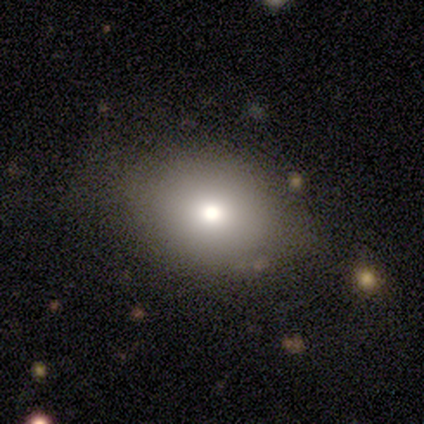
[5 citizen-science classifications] Volunteers were most divided on "smooth or featured": smooth: 80%, featured or disk: 20%, star or artifact: 0%. More confident: how rounded — in between (100%); merging — none (80%).